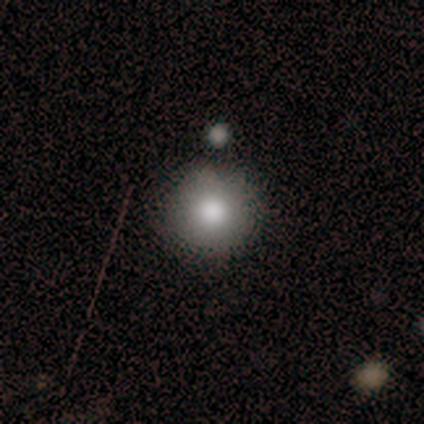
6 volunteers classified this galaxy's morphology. Volunteers were most divided on "how rounded": round: 60%, in between: 40%, cigar-shaped: 0%. More confident: smooth or featured — smooth (83%); merging — none (67%).